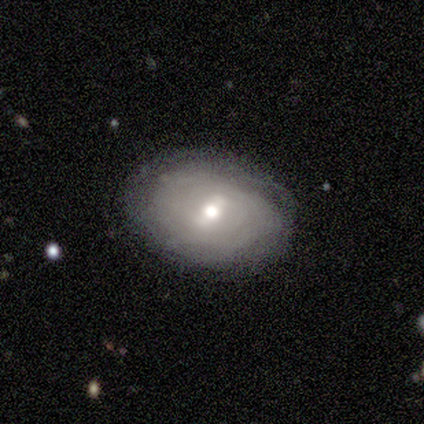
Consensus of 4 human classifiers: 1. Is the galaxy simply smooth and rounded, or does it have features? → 50% smooth (tied), 50% featured or disk (tied), 0% star or artifact.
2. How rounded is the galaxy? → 50% round (tied), 50% in between (tied), 0% cigar-shaped.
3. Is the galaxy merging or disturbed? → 50% none, 25% minor disturbance, 25% major disturbance, 0% merger.